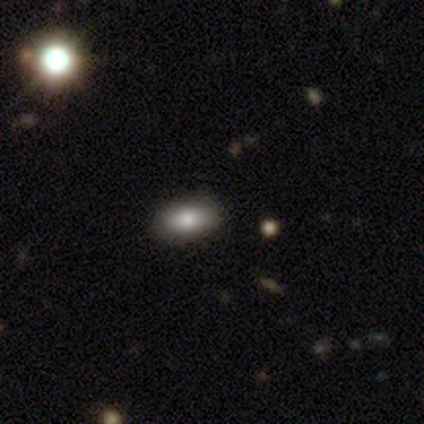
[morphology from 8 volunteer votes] A smooth galaxy with no disk features (62%) that is in between round and cigar-shaped (80%). Merging: none (100%).